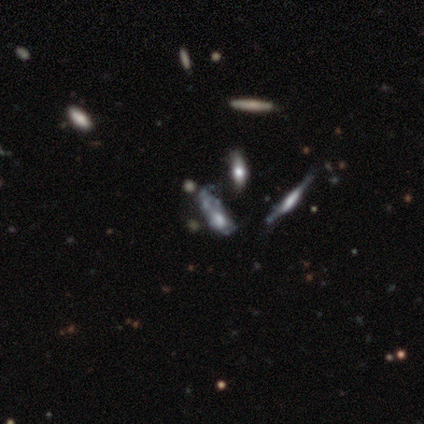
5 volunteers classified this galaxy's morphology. smooth-or-featured: featured or disk: 80% | smooth: 20% | star or artifact: 0%
  disk-edge-on: yes: 50% (tied) | no: 50% (tied)
    edge-on-bulge: none: 50% (tied) | rounded: 50% (tied) | boxy: 0%
  merging: none: 100% | minor disturbance: 0% | major disturbance: 0% | merger: 0%